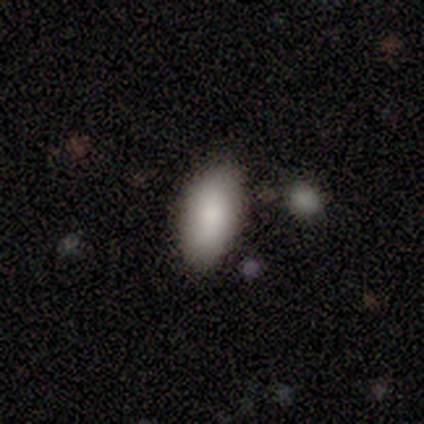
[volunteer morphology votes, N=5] smooth_or_featured: smooth (p=1.00)
how_rounded: in between (p=0.80) [alt: round p=0.20]
merging: none (p=0.80) [alt: merger p=0.20]